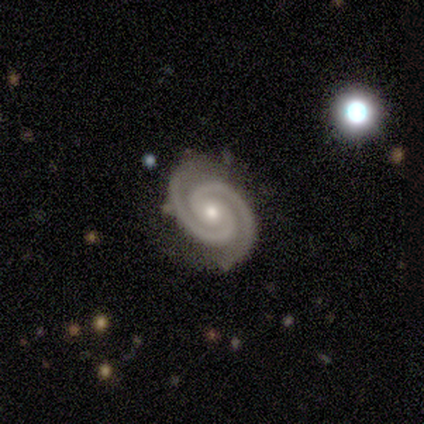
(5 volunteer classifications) A featured or disk galaxy (80%) with a strong bar (50%, tied with no), 2 (100%) medium (100%) spiral arms (100%) and a moderate central bulge (75%).

Vote fractions:
- Smooth or featured? featured or disk: 80% / star or artifact: 20% / smooth: 0%
- Edge-on disk? no: 100% / yes: 0%
- Bar? strong: 50% (tied) / no: 50% (tied) / weak: 0%
- Spiral arms? yes: 100% / no: 0%
- Spiral winding? medium: 100% / tight: 0% / loose: 0%
- Spiral arm count? 2: 100% / 1: 0% / 3: 0% / 4: 0% / more than 4: 0% / can't tell: 0%
- Bulge size? moderate: 75% / small: 25% / dominant: 0% / large: 0% / none: 0%
- Merging? none: 75% / minor disturbance: 25% / major disturbance: 0% / merger: 0%